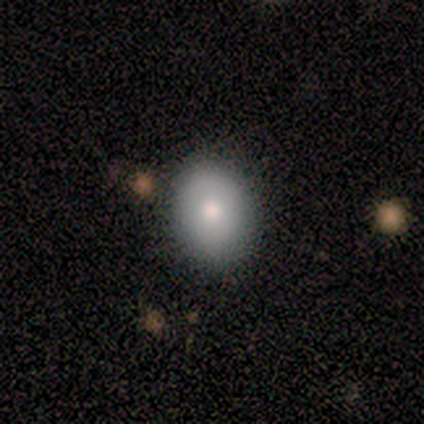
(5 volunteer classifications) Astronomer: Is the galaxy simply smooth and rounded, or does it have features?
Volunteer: smooth — 80%.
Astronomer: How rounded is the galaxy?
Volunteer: in between — 100%.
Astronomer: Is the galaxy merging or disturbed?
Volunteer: none — 100%.